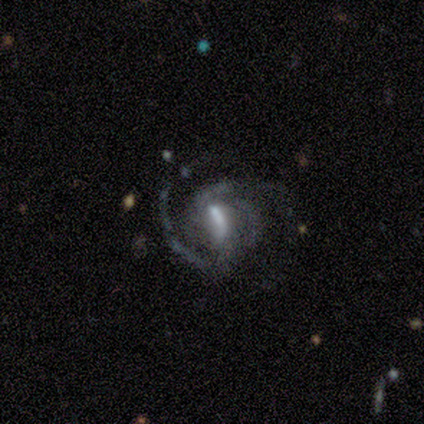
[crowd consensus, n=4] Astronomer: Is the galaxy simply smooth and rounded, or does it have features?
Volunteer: featured or disk — 100%.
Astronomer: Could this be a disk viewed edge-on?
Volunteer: no — 100%.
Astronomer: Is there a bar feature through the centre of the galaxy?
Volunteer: weak — 75%.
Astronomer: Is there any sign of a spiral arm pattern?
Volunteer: yes — 100%.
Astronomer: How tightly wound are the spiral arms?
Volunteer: tight — 50%.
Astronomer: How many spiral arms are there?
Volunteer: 2 — 75%.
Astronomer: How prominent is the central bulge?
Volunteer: none — 50%.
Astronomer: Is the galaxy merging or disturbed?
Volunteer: none — 50%.